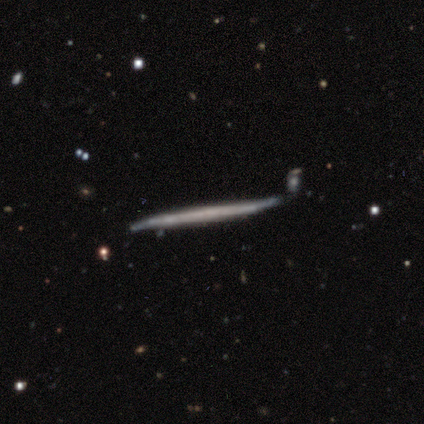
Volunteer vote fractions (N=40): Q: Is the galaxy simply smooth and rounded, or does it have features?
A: featured or disk — 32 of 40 (80%).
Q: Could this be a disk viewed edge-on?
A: yes — 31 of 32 (97%).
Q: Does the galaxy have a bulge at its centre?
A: none — 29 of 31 (94%).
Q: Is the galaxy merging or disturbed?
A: none — 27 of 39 (69%).